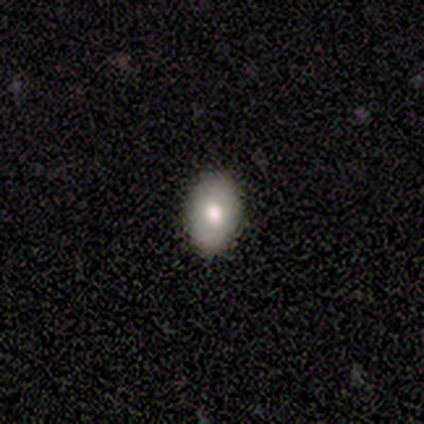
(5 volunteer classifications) Overall: smooth (100%). How rounded: in between (80%). Merging: none (100%).